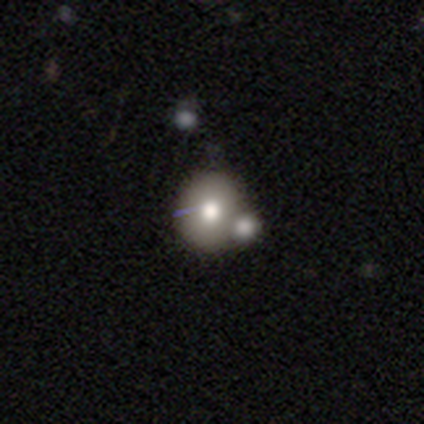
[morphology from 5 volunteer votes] A smooth galaxy with no disk features (80%) that is round (100%). Merging: none (60%).